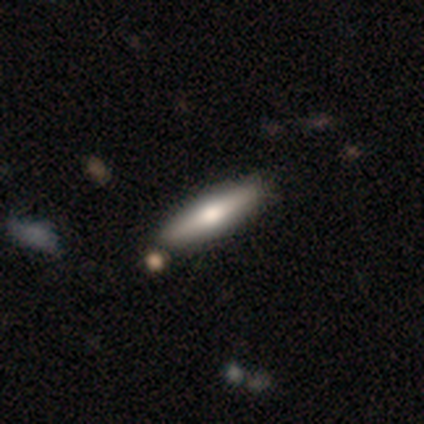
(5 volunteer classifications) This appears to be a smooth galaxy with no disk features (80%) that is cigar-shaped (100%). Merging: none (100%).